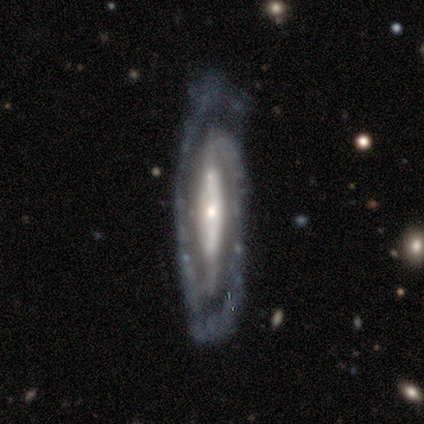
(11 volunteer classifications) smooth_or_featured: featured or disk (p=0.91) [alt: smooth p=0.09]
disk_edge_on: no (p=1.00)
bar: strong (p=0.70) [alt: no p=0.30]
has_spiral_arms: yes (p=0.90) [alt: no p=0.10]
spiral_winding: tight (p=0.78) [alt: medium p=0.22]
spiral_arm_count: 2 (p=0.89) [alt: 1 p=0.11]
bulge_size: small (p=0.90) [alt: moderate p=0.10]
merging: none (p=0.73) [alt: minor disturbance p=0.18]